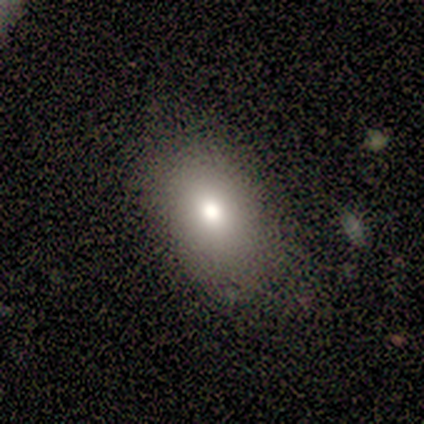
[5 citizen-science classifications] This is clearly a smooth galaxy (80%). How rounded: clearly in between (100%). Merging: clearly none (80%).